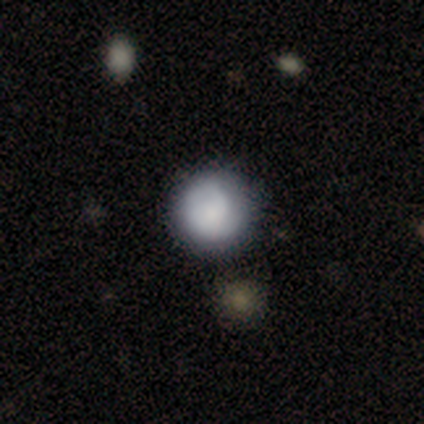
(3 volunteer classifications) Smooth or featured?
  - smooth: 67% *
  - featured or disk: 33%
  - star or artifact: 0%
How rounded?
  - round: 100% *
  - in between: 0%
  - cigar-shaped: 0%
Merging?
  - none: 67% *
  - minor disturbance: 33%
  - major disturbance: 0%
  - merger: 0%